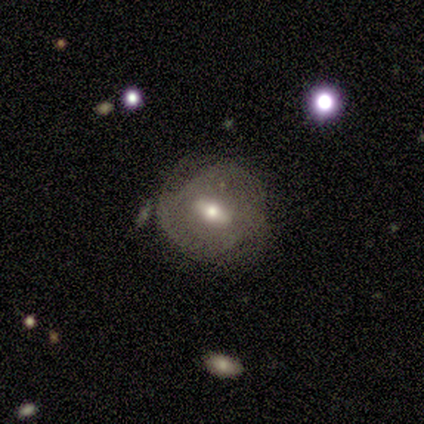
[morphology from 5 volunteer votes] This appears to be a featured or disk galaxy (60%) with a strong bar (67%), 3 (67%) tight (33%, tied with medium and loose) spiral arms (100%) and a small central bulge (67%). Merging: none (75%).